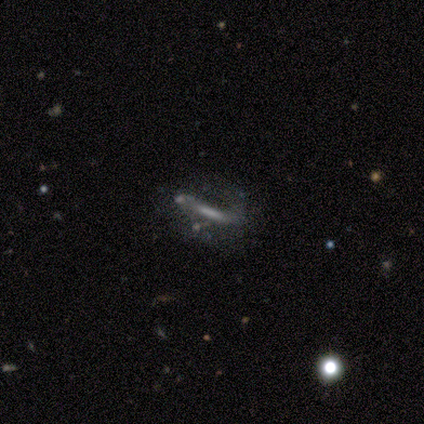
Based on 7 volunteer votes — This is possibly a featured or disk galaxy (57%). It is likely viewed edge-on (75%). Edge-on bulge: likely none (67%). Merging: likely none (67%).